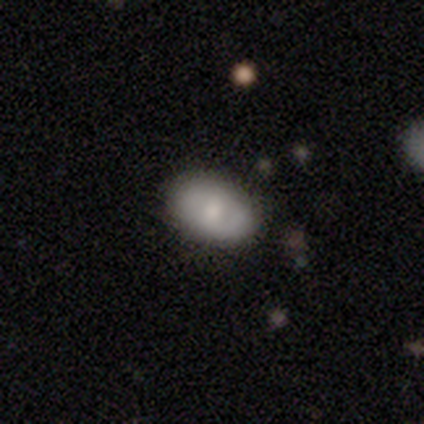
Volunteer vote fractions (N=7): smooth 57%, featured or disk 43%, star or artifact 0%. Down the decision tree: how rounded — in between (100%); merging — none (71%).